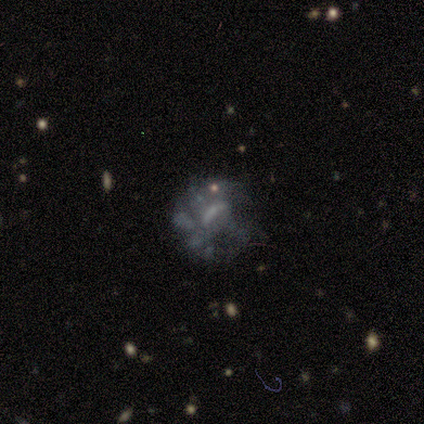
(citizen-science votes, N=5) featured or disk 60%, smooth 20%, star or artifact 20%. Down the decision tree: edge-on disk — no (100%); bar — no (67%); spiral arms — no (100%); bulge size — none (100%); merging — minor disturbance (75%).